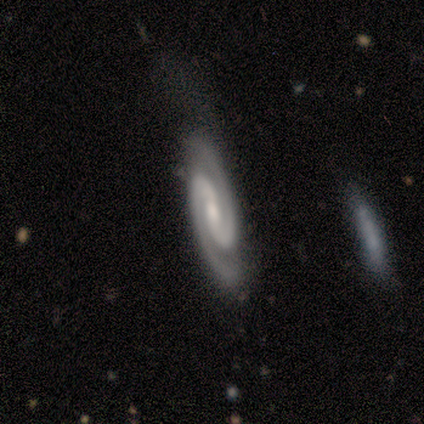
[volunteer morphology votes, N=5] Smooth or featured?
  - featured or disk: 100% *
  - smooth: 0%
  - star or artifact: 0%
Edge-on disk?
  - no: 100% *
  - yes: 0%
Bar?
  - no: 60% *
  - strong: 40%
  - weak: 0%
Spiral arms?
  - yes: 100% *
  - no: 0%
Spiral winding?
  - tight: 60% *
  - medium: 40%
  - loose: 0%
Spiral arm count?
  - 2: 100% *
  - 1: 0%
  - 3: 0%
  - 4: 0%
  - more than 4: 0%
  - can't tell: 0%
Bulge size?
  - small: 60% *
  - moderate: 40%
  - dominant: 0%
  - large: 0%
  - none: 0%
Merging?
  - none: 60% *
  - minor disturbance: 20%
  - major disturbance: 20%
  - merger: 0%